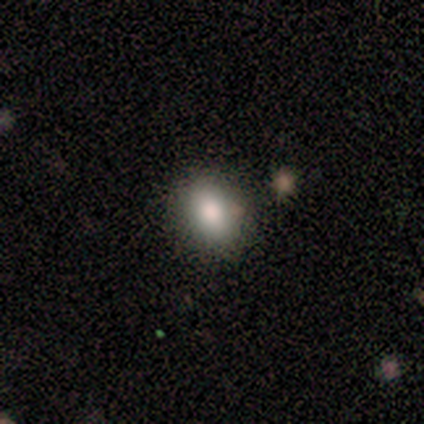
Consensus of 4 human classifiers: A smooth galaxy with no disk features (75%) that is round (67%). Merging: none (67%).